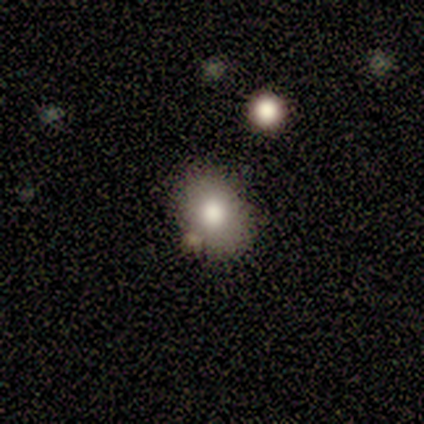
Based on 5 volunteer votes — Overall: smooth (80%). How rounded: round (50%, tied with in between). Merging: none (75%).